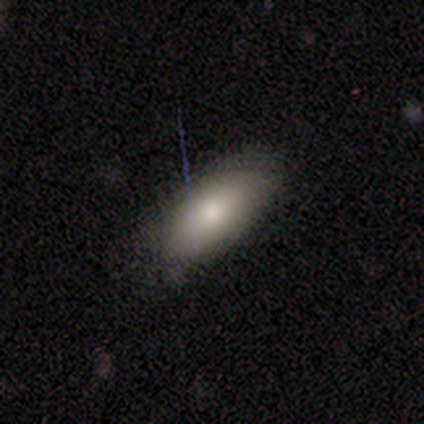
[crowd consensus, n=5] Smooth or featured?
  - smooth: 100% *
  - featured or disk: 0%
  - star or artifact: 0%
How rounded?
  - in between: 100% *
  - round: 0%
  - cigar-shaped: 0%
Merging?
  - none: 100% *
  - minor disturbance: 0%
  - major disturbance: 0%
  - merger: 0%